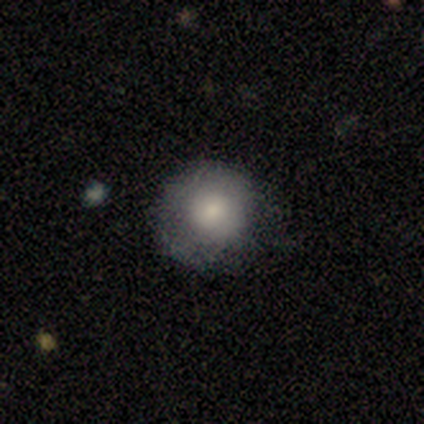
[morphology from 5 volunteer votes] A smooth galaxy with no disk features (100%) that is round (100%). Merging: none (80%).